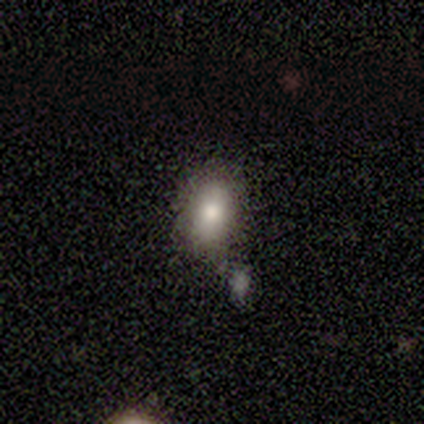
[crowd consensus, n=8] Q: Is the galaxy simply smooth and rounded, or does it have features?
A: smooth — 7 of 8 (88%).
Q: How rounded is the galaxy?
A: in between — 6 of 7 (86%).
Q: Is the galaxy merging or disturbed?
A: none — 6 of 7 (86%).